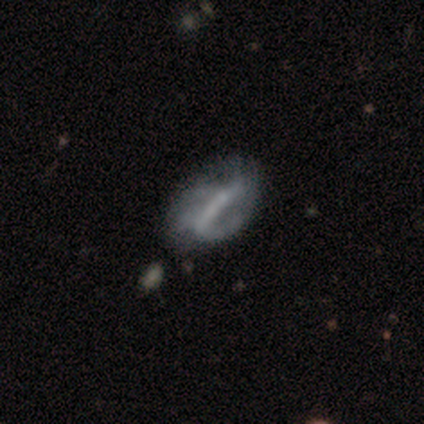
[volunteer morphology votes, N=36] smooth-or-featured: featured or disk: 72% | smooth: 22% | star or artifact: 6%
  disk-edge-on: no: 92% | yes: 8%
    bar: strong: 54% | weak: 33% | no: 12%
    has-spiral-arms: yes: 75% | no: 25%
      spiral-winding: medium: 50% | tight: 28% | loose: 22%
      spiral-arm-count: can't tell: 39% | 1: 22% | 2: 17% | 3: 17% | 4: 6% | more than 4: 0%
    bulge-size: small: 46% (tied) | none: 46% (tied) | moderate: 8% | dominant: 0% | large: 0%
  merging: minor disturbance: 26% | none: 24% | merger: 18% | major disturbance: 9%